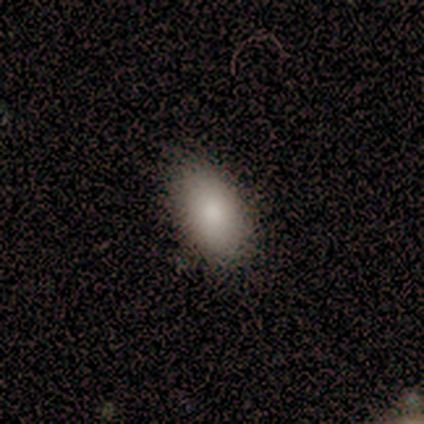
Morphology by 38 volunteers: This appears to be a smooth galaxy with no disk features (89%) that is in between round and cigar-shaped (100%). Merging: none (56%).